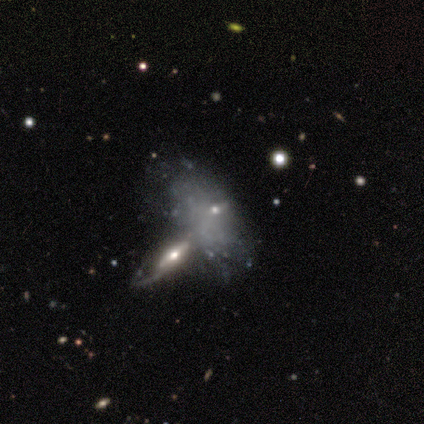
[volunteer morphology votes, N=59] A featured or disk galaxy (63%) with no bar (79%), no spiral arms (76%) and no central bulge (45%). Merging: merger (65%).